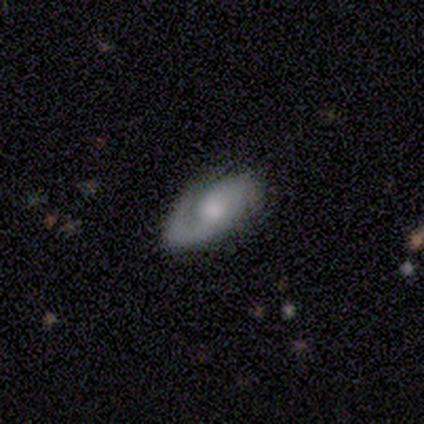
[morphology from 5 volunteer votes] Volunteers were most divided on "spiral arms" (2-way tie): yes: 50%, no: 50%; "spiral winding" (2-way tie): medium: 50%, loose: 50%, tight: 0%; "merging" (2-way tie): none: 50%, minor disturbance: 50%, major disturbance: 0%, merger: 0%. More confident: edge-on disk — no (100%); spiral arm count — 2 (100%); smooth or featured — featured or disk (80%); bar — no (75%); bulge size — moderate (75%).